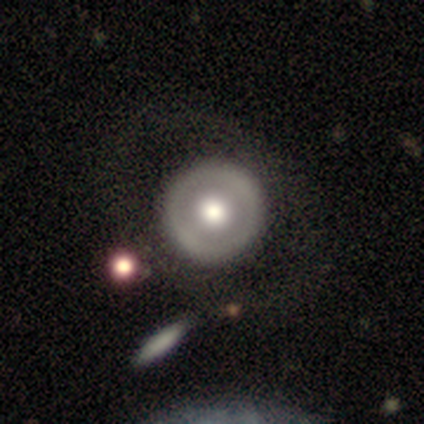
Smooth or featured: featured or disk — 100%
Edge-on disk: no — 100%
Bar: no — 60% (strong — 20%)
Spiral arms: no — 100%
Bulge size: large — 60% (moderate — 40%)
Merging: none — 100%